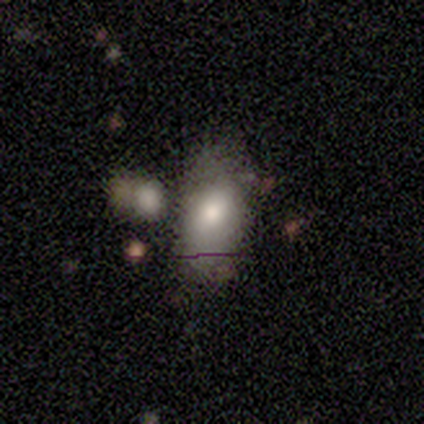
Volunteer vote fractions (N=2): smooth 100%, featured or disk 0%, star or artifact 0%. Down the decision tree: how rounded — in between (100%); merging — minor disturbance (100%).